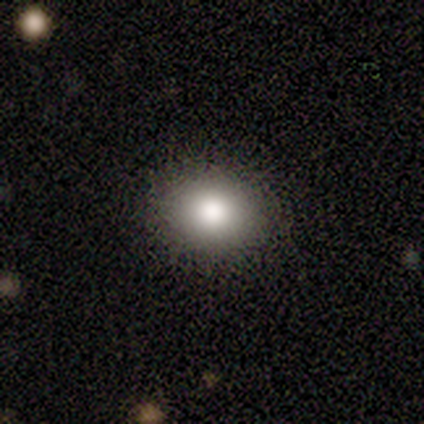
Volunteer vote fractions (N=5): Overall: smooth (80%). How rounded: round (75%). Merging: none (100%).